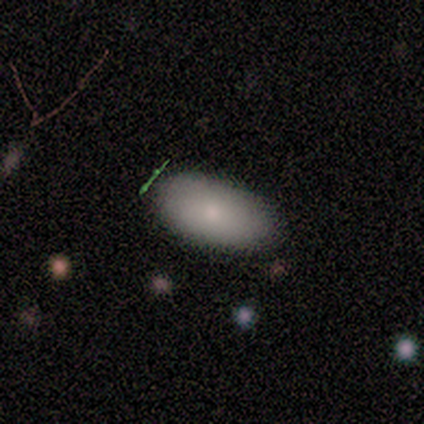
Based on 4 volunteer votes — smooth-or-featured: smooth: 75% | featured or disk: 25% | star or artifact: 0%
  how-rounded: in between: 67% | round: 33% | cigar-shaped: 0%
  merging: minor disturbance: 75% | none: 25% | major disturbance: 0% | merger: 0%